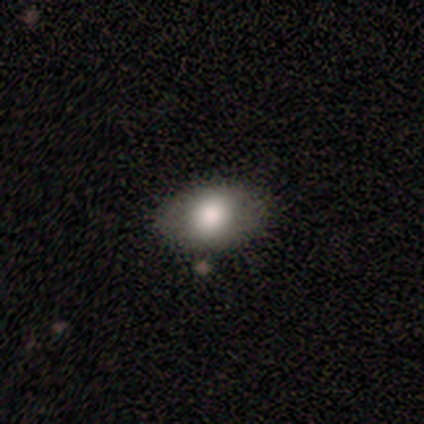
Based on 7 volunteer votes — Smooth or featured: smooth — 71% (featured or disk — 14%)
How rounded: in between — 80% (round — 20%)
Merging: none — 50% (minor disturbance — 33%)